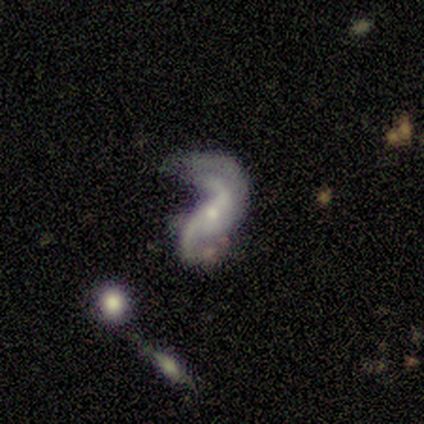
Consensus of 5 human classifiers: Smooth or featured? featured or disk (80%)
Edge-on disk? no (100%)
Bar? weak (50%, tied with no)
Spiral arms? yes (100%)
Spiral winding? loose (100%)
Spiral arm count? 2 (75%)
Bulge size? small (75%)
Merging? major disturbance (60%)